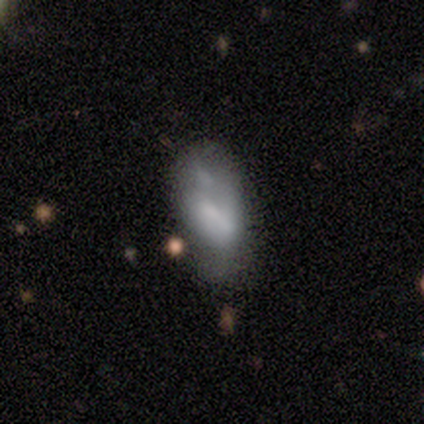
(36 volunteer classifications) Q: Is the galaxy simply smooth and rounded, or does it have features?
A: smooth — 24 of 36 (67%).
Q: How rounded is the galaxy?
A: in between — 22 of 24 (92%).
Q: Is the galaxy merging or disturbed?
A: minor disturbance — 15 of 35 (43%).